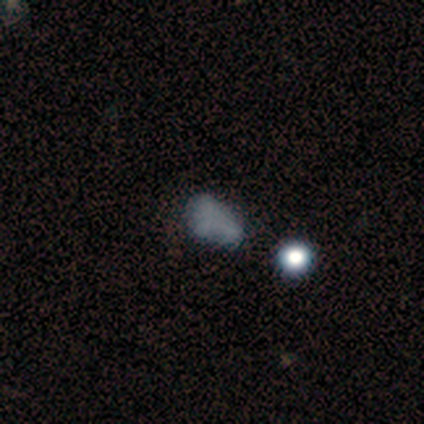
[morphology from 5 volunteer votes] smooth-or-featured: smooth: 40% (tied) | star or artifact: 40% (tied) | featured or disk: 20%
  how-rounded: in between: 100% | round: 0% | cigar-shaped: 0%
  merging: none: 33% (tied) | major disturbance: 33% (tied) | merger: 33% (tied) | minor disturbance: 0%